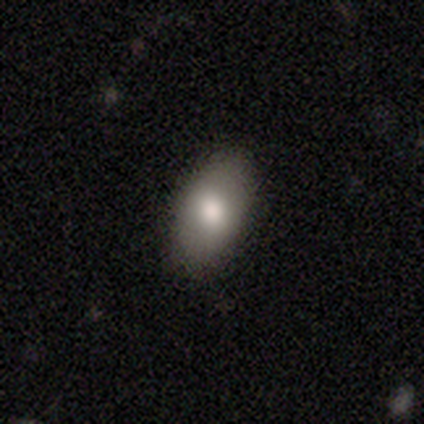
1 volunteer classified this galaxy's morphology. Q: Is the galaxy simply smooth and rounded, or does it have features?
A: smooth — 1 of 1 (100%).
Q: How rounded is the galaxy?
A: in between — 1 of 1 (100%).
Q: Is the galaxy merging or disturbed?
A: minor disturbance — 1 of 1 (100%).